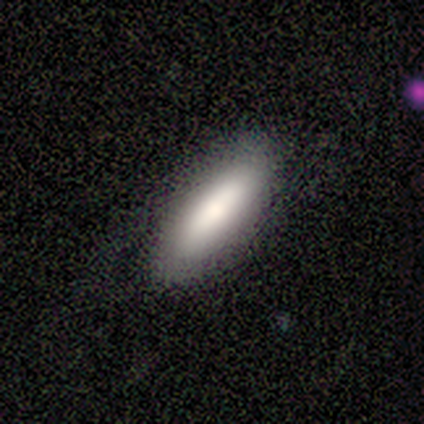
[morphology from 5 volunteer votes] A smooth galaxy with no disk features (80%) that is cigar-shaped (100%). Merging: none (80%).